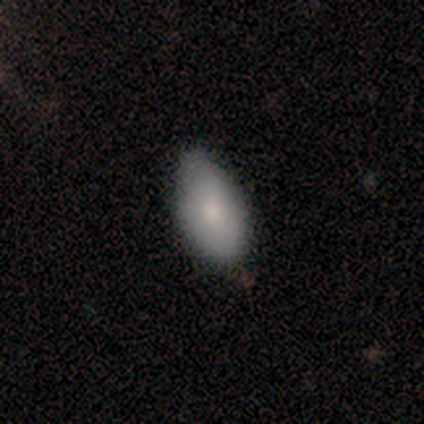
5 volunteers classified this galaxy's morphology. A smooth galaxy with no disk features (60%) that is in between round and cigar-shaped (67%).

Vote fractions:
- Smooth or featured? smooth: 60% / featured or disk: 40% / star or artifact: 0%
- How rounded? in between: 67% / cigar-shaped: 33% / round: 0%
- Merging? none: 60% / minor disturbance: 20% / major disturbance: 20% / merger: 0%